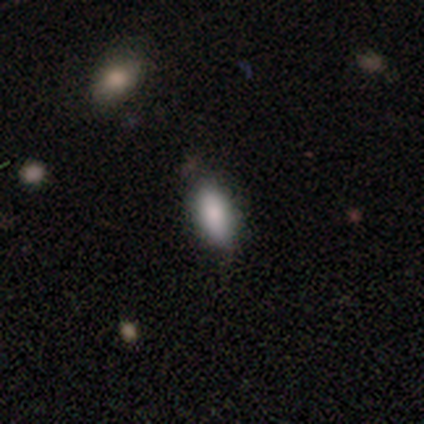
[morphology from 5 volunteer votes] smooth-or-featured: smooth: 100% | featured or disk: 0% | star or artifact: 0%
  how-rounded: in between: 60% | round: 20% | cigar-shaped: 20%
  merging: none: 80% | major disturbance: 20% | minor disturbance: 0% | merger: 0%